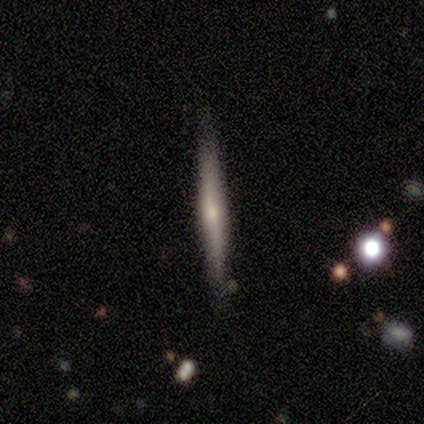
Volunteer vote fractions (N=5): Q: Smooth or featured?
A: featured or disk (60%); runner-up: smooth (40%)
Q: Edge-on disk?
A: yes (100%)
Q: Edge-on bulge?
A: boxy (33%); tied with: none (33%); rounded (33%)
Q: Merging?
A: none (100%)